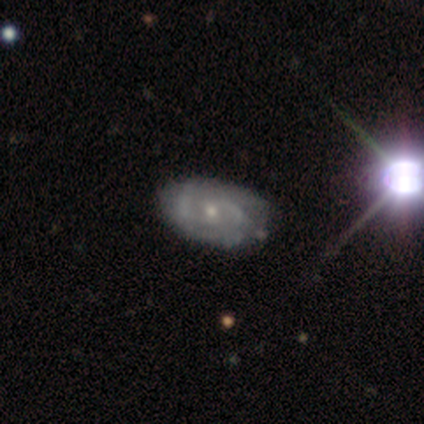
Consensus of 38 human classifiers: smooth_or_featured: featured or disk (p=0.87) [alt: smooth p=0.11]
disk_edge_on: no (p=0.97) [alt: yes p=0.03]
bar: no (p=0.66) [alt: weak p=0.34]
has_spiral_arms: yes (p=0.84) [alt: no p=0.16]
spiral_winding: medium (p=0.56) [alt: tight p=0.44]
spiral_arm_count: 2 (p=0.59) [alt: can't tell p=0.37]
bulge_size: small (p=0.72) [alt: moderate p=0.16]
merging: none (p=0.51) [alt: minor disturbance p=0.08]